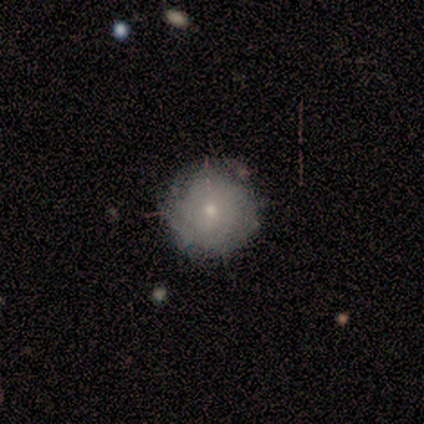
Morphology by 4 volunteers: smooth-or-featured: featured or disk: 50% | smooth: 25% | star or artifact: 25%
  disk-edge-on: no: 100% | yes: 0%
    bar: weak: 50% (tied) | no: 50% (tied) | strong: 0%
    has-spiral-arms: yes: 100% | no: 0%
      spiral-winding: tight: 50% (tied) | medium: 50% (tied) | loose: 0%
      spiral-arm-count: 4: 50% (tied) | can't tell: 50% (tied) | 1: 0% | 2: 0% | 3: 0% | more than 4: 0%
    bulge-size: moderate: 50% (tied) | small: 50% (tied) | dominant: 0% | large: 0% | none: 0%
  merging: none: 67% | minor disturbance: 33% | major disturbance: 0% | merger: 0%